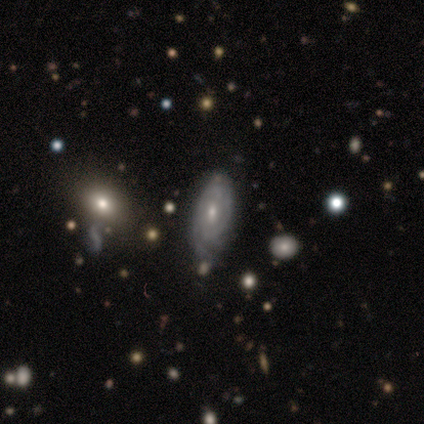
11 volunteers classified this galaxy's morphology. A featured or disk galaxy (82%) with no bar (67%), tight (67%) spiral arms (100%) and a moderate central bulge (67%). Merging: none (36%, tied with minor disturbance).